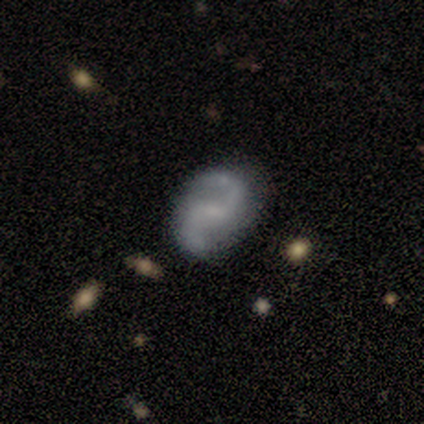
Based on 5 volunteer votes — Morphology: type=featured or disk (100%); edge-on=no (100%); bar=weak (60%); spiral arms=yes (100%); winding=loose (60%); arm count=2 (100%); bulge=small (80%); merging=none (80%).